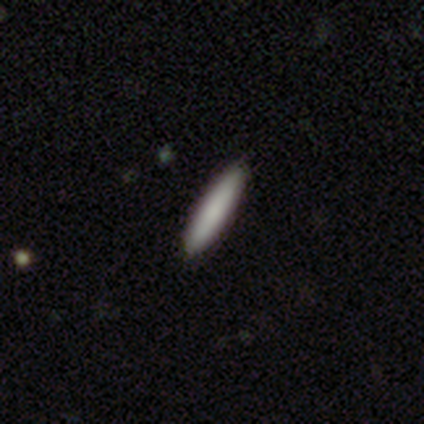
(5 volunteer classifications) A smooth galaxy with no disk features (60%) that is cigar-shaped (100%).

Vote fractions:
- Smooth or featured? smooth: 60% / star or artifact: 40% / featured or disk: 0%
- How rounded? cigar-shaped: 100% / round: 0% / in between: 0%
- Merging? none: 100% / minor disturbance: 0% / major disturbance: 0% / merger: 0%